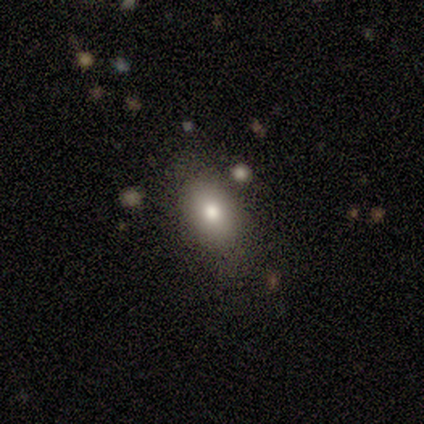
Smooth or featured?
  - smooth: 75% *
  - star or artifact: 25%
  - featured or disk: 0%
How rounded?
  - in between: 67% *
  - round: 33%
  - cigar-shaped: 0%
Merging?
  - none: 67% *
  - minor disturbance: 33%
  - major disturbance: 0%
  - merger: 0%